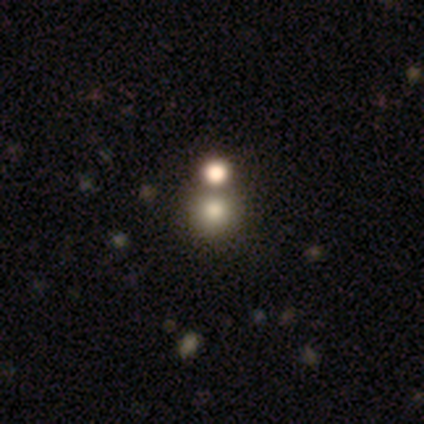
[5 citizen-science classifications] Smooth or featured? smooth (40%, tied with star or artifact)
How rounded? round (100%)
Merging? none (67%)